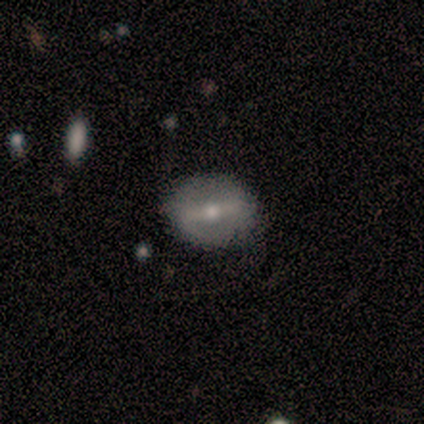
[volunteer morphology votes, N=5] Volunteers were most divided on "merging": none: 60%, minor disturbance: 20%, major disturbance: 20%, merger: 0%. More confident: edge-on disk — no (100%); smooth or featured — featured or disk (80%); bar — strong (75%); spiral arms — no (75%); bulge size — small (75%).